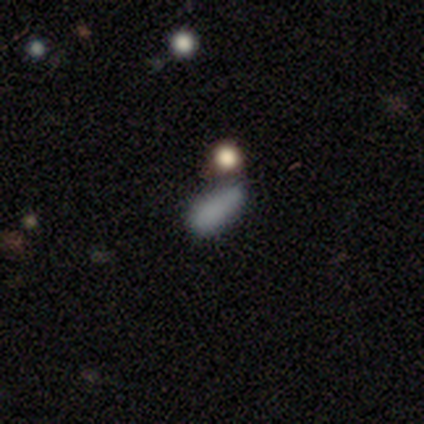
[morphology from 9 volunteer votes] Smooth or featured? 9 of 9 (100%) said smooth. How rounded? 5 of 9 (56%) said in between. Merging? 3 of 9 (33%, tied with minor disturbance and merger) said none.